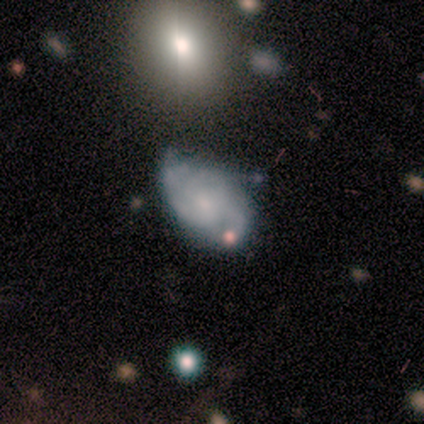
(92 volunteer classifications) Smooth or featured: featured or disk — 73% (smooth — 20%)
Edge-on disk: no — 100%
Bar: no — 73% (weak — 25%)
Spiral arms: yes — 85% (no — 15%)
Spiral winding: tight — 56% (medium — 39%)
Spiral arm count: can't tell — 37% (2 — 30%)
Bulge size: small — 60% (moderate — 18%)
Merging: minor disturbance — 53% (none — 36%)